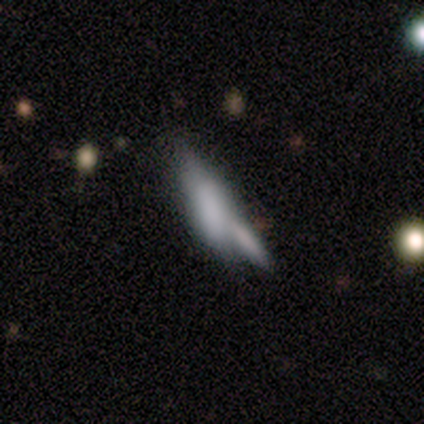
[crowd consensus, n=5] smooth_or_featured: featured or disk (p=0.60) [alt: smooth p=0.40]
disk_edge_on: yes (p=0.67) [alt: no p=0.33]
edge_on_bulge: rounded (p=1.00)
merging: none (p=0.40) [tied with: merger p=0.40]